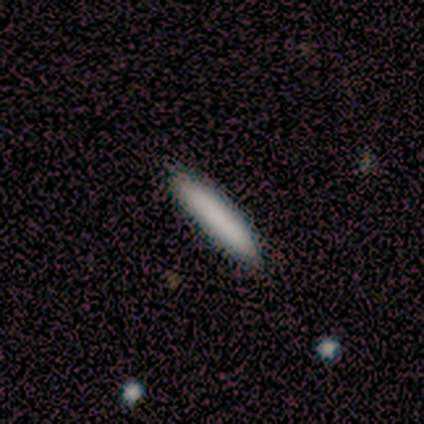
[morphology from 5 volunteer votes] A smooth galaxy with no disk features (100%) that is cigar-shaped (80%).

Vote fractions:
- Smooth or featured? smooth: 100% / featured or disk: 0% / star or artifact: 0%
- How rounded? cigar-shaped: 80% / in between: 20% / round: 0%
- Merging? none: 100% / minor disturbance: 0% / major disturbance: 0% / merger: 0%